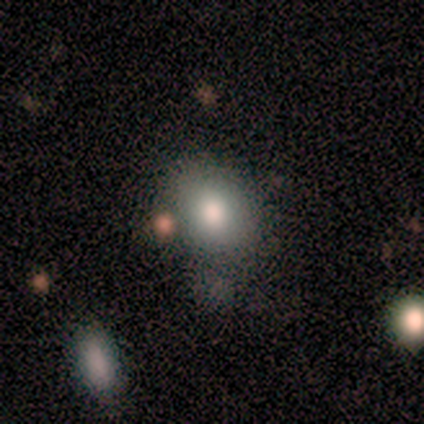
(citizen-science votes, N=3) smooth-or-featured: smooth: 67% | featured or disk: 33% | star or artifact: 0%
  how-rounded: round: 50% (tied) | in between: 50% (tied) | cigar-shaped: 0%
  merging: minor disturbance: 67% | none: 33% | major disturbance: 0% | merger: 0%